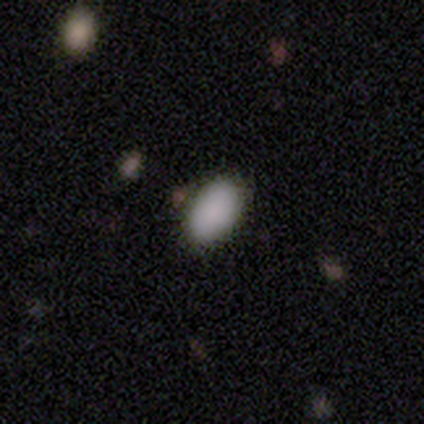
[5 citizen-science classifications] Smooth or featured? smooth (60%)
How rounded? in between (100%)
Merging? none (75%)